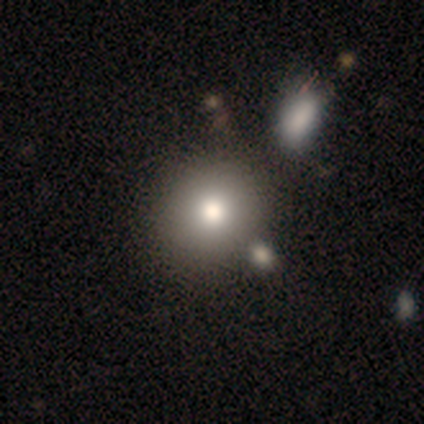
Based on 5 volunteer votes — Smooth or featured? 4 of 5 (80%) said smooth. How rounded? 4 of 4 (100%) said round. Merging? 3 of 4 (75%) said none.